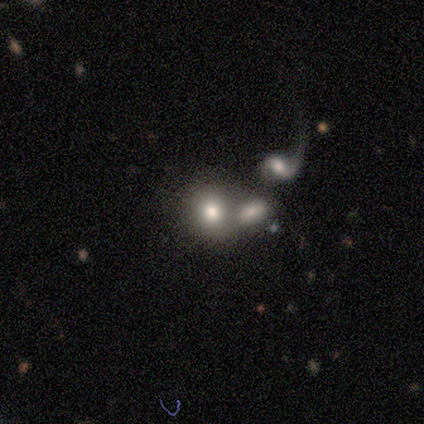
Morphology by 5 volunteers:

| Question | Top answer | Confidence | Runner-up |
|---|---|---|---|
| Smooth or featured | smooth | 80% | star or artifact (20%) |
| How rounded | round | 75% | in between (25%) |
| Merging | none | 50% | tied: merger (50%) |